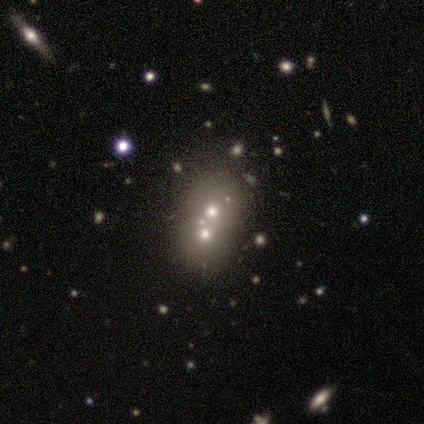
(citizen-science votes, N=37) Q: Smooth or featured?
A: smooth (46%); runner-up: featured or disk (30%)
Q: How rounded?
A: in between (53%); runner-up: round (41%)
Q: Merging?
A: merger (86%); runner-up: minor disturbance (7%)